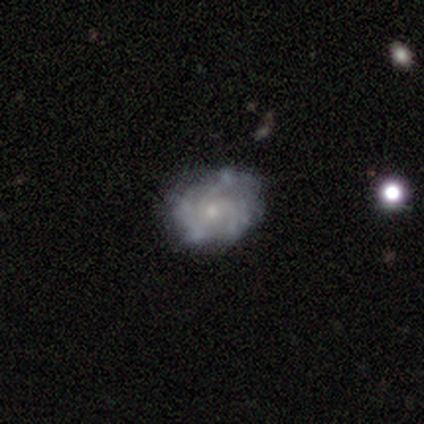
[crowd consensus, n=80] smooth-or-featured: featured or disk: 80% | smooth: 15% | star or artifact: 5%
  disk-edge-on: no: 100% | yes: 0%
    bar: no: 80% | weak: 19% | strong: 2%
    has-spiral-arms: yes: 67% | no: 33%
      spiral-winding: medium: 49% | tight: 44% | loose: 7%
      spiral-arm-count: can't tell: 44% | 3: 30% | 4: 19% | 2: 5% | 1: 2% | more than 4: 0%
    bulge-size: small: 77% | moderate: 16% | none: 5% | large: 3% | dominant: 0%
  merging: none: 28% | minor disturbance: 14% | major disturbance: 8% | merger: 0%